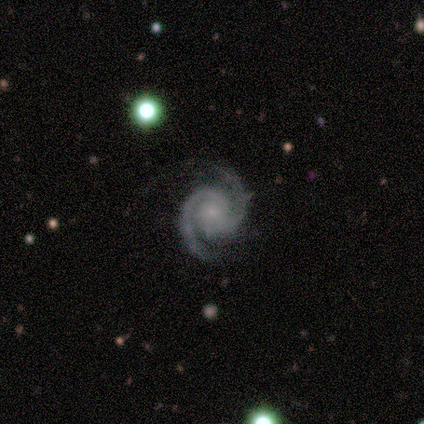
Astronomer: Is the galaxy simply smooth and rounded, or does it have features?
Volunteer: featured or disk — 100%.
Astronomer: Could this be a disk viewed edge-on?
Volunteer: no — 100%.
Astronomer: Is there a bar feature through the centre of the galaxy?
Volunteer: weak — 60% (runner-up: no, 40%).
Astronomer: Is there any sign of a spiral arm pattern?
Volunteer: yes — 100%.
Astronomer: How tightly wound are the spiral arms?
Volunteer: tight — 60% (runner-up: medium, 40%).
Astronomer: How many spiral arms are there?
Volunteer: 2 — 100%.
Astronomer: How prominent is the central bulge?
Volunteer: small — 100%.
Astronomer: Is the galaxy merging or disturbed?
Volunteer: none — 100%.